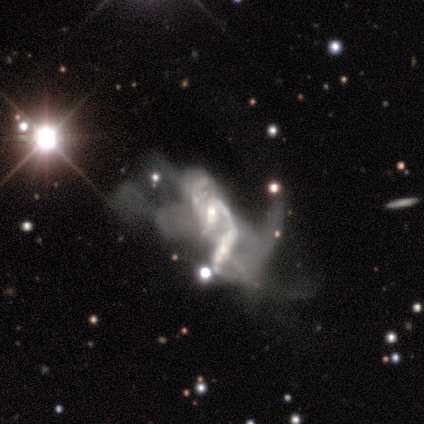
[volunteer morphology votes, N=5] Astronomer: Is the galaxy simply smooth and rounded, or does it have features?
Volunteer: featured or disk — 80%.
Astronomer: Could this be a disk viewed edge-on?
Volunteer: no — 100%.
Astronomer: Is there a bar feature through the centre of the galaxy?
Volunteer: no — 75%.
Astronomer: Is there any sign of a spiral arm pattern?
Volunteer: yes — 100%.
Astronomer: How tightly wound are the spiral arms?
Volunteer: loose — 100%.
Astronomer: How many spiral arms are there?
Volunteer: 2 — 100%.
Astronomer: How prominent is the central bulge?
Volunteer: small — 75%.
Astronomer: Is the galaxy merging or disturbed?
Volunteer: merger — 50%.